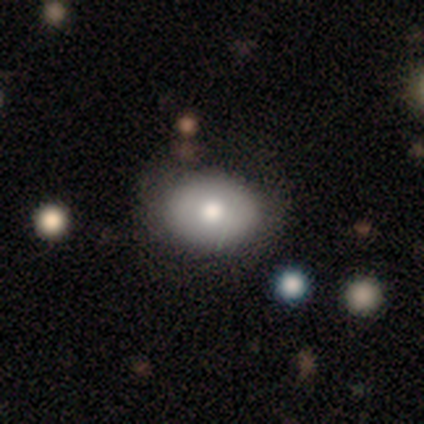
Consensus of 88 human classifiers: Smooth or featured? 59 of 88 (67%) said smooth. How rounded? 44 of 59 (75%) said in between. Merging? 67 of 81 (83%) said none.